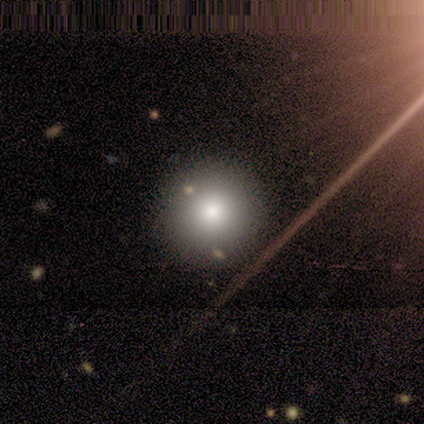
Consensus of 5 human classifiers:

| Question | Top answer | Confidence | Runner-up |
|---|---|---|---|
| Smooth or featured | smooth | 100% | — |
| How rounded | round | 100% | — |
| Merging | none | 80% | merger (20%) |